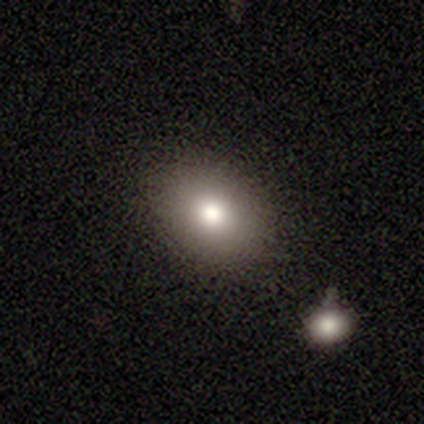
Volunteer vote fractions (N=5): Volunteers were most divided on "smooth or featured" (2-way tie): featured or disk: 40%, star or artifact: 40%, smooth: 20%; "edge-on disk" (2-way tie): yes: 50%, no: 50%. More confident: edge-on bulge — rounded (100%); merging — none (100%).